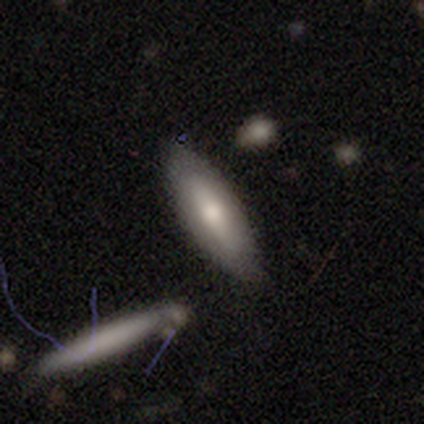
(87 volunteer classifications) smooth_or_featured: smooth (p=0.68) [alt: featured or disk p=0.25]
how_rounded: cigar-shaped (p=0.58) [alt: in between p=0.41]
merging: none (p=0.70) [alt: minor disturbance p=0.16]